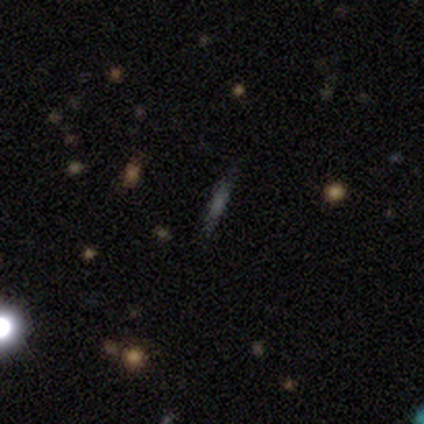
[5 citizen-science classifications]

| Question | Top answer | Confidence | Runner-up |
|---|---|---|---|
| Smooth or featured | smooth | 40% | tied: featured or disk (40%) |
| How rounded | cigar-shaped | 100% | — |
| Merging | none | 75% | major disturbance (25%) |